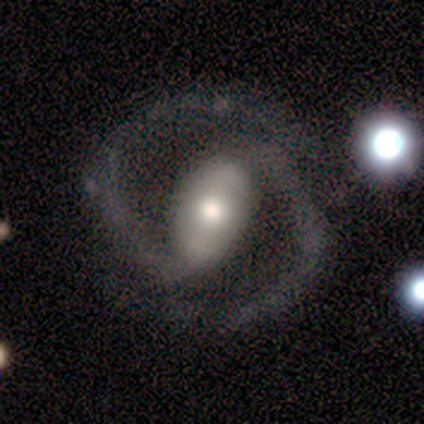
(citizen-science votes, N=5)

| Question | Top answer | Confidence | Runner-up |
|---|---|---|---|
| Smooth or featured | featured or disk | 80% | smooth (20%) |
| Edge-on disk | no | 100% | — |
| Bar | strong | 75% | no (25%) |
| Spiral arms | yes | 100% | — |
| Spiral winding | tight | 50% | medium (25%) |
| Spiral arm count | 2 | 100% | — |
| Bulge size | large | 50% | moderate (25%) |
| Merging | none | 80% | minor disturbance (20%) |